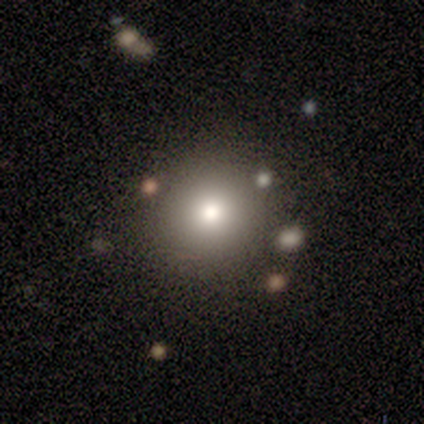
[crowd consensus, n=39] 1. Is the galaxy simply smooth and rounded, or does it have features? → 72% smooth, 15% featured or disk, 13% star or artifact.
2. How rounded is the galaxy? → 96% round, 4% in between, 0% cigar-shaped.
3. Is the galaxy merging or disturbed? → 91% none, 6% minor disturbance, 3% merger, 0% major disturbance.